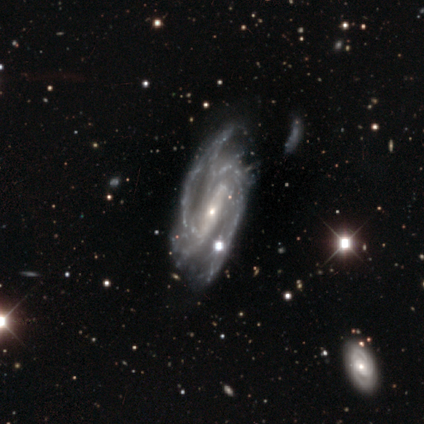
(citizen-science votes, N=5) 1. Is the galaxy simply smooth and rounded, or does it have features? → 100% featured or disk, 0% smooth, 0% star or artifact.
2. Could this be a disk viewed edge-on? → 100% no, 0% yes.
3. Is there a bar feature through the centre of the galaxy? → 60% strong, 40% weak, 0% no.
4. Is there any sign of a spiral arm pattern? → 100% yes, 0% no.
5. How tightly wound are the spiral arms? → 60% tight, 40% medium, 0% loose.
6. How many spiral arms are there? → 60% 2, 40% 3, 0% 1, 0% 4, 0% more than 4, 0% can't tell.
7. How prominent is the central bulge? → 100% small, 0% dominant, 0% large, 0% moderate, 0% none.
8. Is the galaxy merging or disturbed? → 60% none, 20% major disturbance, 20% merger, 0% minor disturbance.